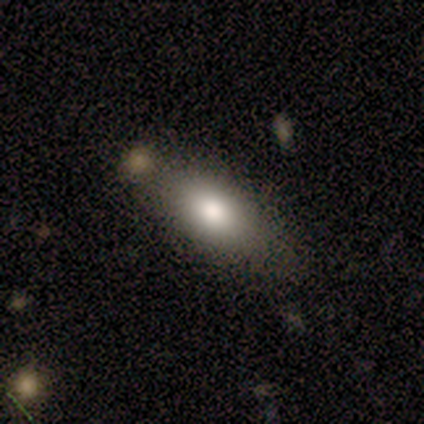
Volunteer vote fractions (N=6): Volunteers were most divided on "smooth or featured": smooth: 50%, featured or disk: 33%, star or artifact: 17%. More confident: how rounded — in between (100%); merging — none (80%).